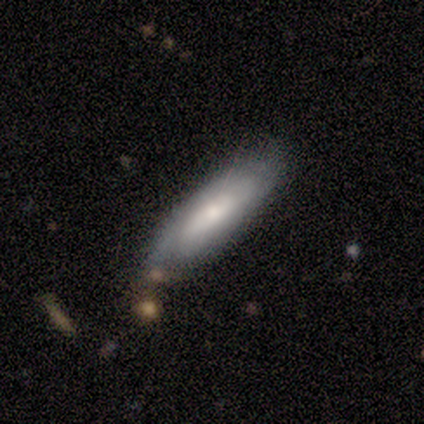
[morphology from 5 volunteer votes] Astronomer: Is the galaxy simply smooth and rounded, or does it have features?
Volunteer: smooth — 40%, tied with star or artifact at 40%.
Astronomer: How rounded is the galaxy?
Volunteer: in between — 50%, tied with cigar-shaped at 50%.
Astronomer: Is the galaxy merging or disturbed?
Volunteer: none — 67%.